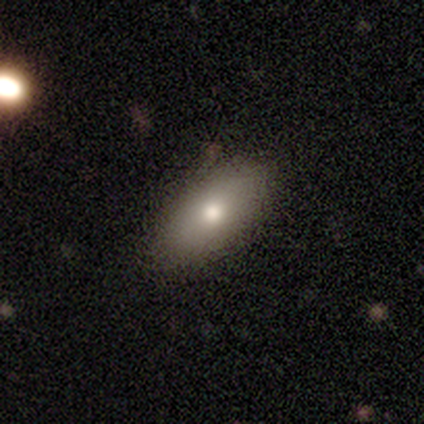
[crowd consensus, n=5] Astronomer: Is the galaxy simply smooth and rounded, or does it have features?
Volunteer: smooth — 80%.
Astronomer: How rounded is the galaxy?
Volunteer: in between — 100%.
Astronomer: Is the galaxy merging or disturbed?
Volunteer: none — 100%.